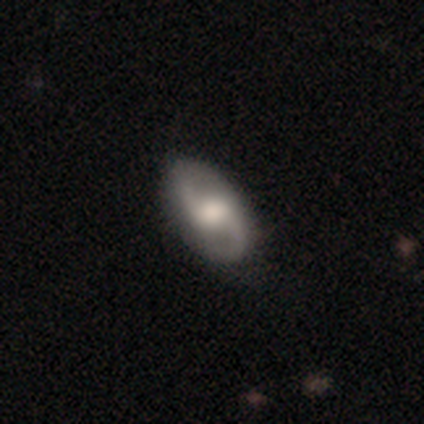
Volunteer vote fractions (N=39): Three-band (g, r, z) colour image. It shows a featured or disk galaxy (85%) with a weak bar (55%), 2 (90%) medium (52%) spiral arms (94%) and a moderate central bulge (52%). Merging: none (72%).